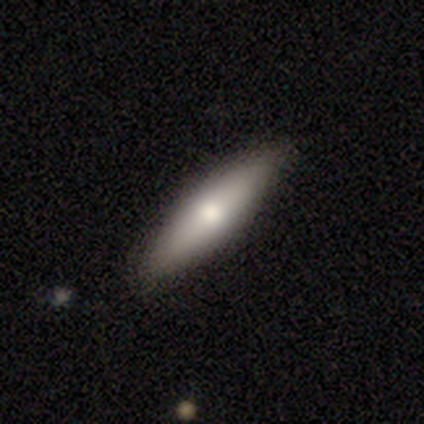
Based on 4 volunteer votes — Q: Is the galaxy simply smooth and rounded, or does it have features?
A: smooth — 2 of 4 (50%, tied with featured or disk).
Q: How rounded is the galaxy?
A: cigar-shaped — 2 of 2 (100%).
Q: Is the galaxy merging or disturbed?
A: none — 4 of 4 (100%).